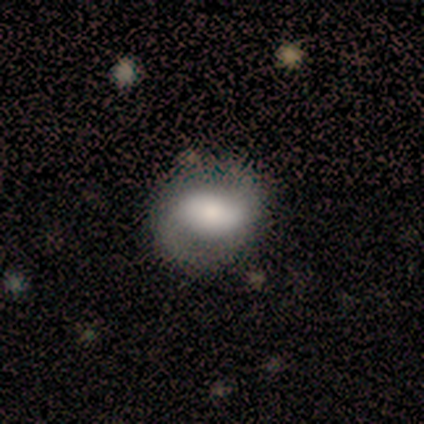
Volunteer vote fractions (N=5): Smooth or featured?
  - featured or disk: 60% *
  - smooth: 20%
  - star or artifact: 20%
Edge-on disk?
  - no: 100% *
  - yes: 0%
Bar?
  - weak: 67% *
  - no: 33%
  - strong: 0%
Spiral arms?
  - yes: 100% *
  - no: 0%
Spiral winding?
  - loose: 67% *
  - tight: 33%
  - medium: 0%
Spiral arm count?
  - 2: 100% *
  - 1: 0%
  - 3: 0%
  - 4: 0%
  - more than 4: 0%
  - can't tell: 0%
Bulge size?
  - large: 33% * (tied)
  - moderate: 33% * (tied)
  - small: 33% * (tied)
  - dominant: 0%
  - none: 0%
Merging?
  - none: 100% *
  - minor disturbance: 0%
  - major disturbance: 0%
  - merger: 0%